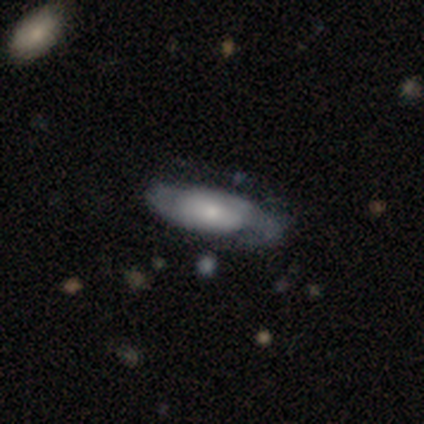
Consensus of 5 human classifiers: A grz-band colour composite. It shows a featured or disk galaxy (80%) with no bar (100%), 2 (100%) medium (100%) spiral arms (50%, tied with no) and a moderate central bulge (50%). Merging: none (50%).